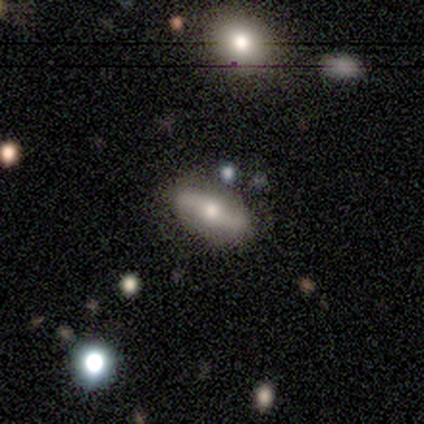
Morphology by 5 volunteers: Smooth or featured? featured or disk (60%)
Edge-on disk? no (67%)
Bar? strong (50%, tied with no)
Spiral arms? yes (100%)
Spiral winding? tight (50%, tied with loose)
Spiral arm count? 2 (100%)
Bulge size? moderate (100%)
Merging? none (60%)